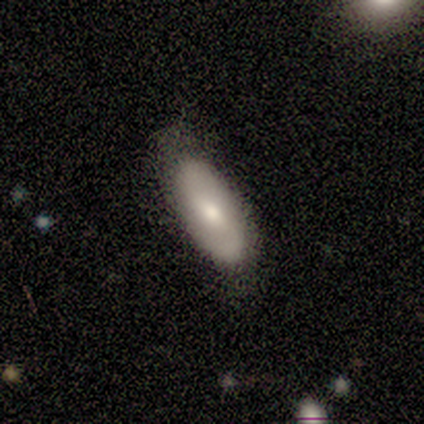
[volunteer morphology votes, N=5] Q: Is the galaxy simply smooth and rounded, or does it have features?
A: featured or disk — 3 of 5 (60%).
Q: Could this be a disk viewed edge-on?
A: no — 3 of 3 (100%).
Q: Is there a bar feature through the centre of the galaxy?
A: strong — 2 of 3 (67%).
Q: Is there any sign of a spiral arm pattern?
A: yes — 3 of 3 (100%).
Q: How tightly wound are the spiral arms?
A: tight — 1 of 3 (33%, tied with medium and loose).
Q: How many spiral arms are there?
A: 2 — 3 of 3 (100%).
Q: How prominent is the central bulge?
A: moderate — 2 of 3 (67%).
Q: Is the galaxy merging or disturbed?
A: none — 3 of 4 (75%).